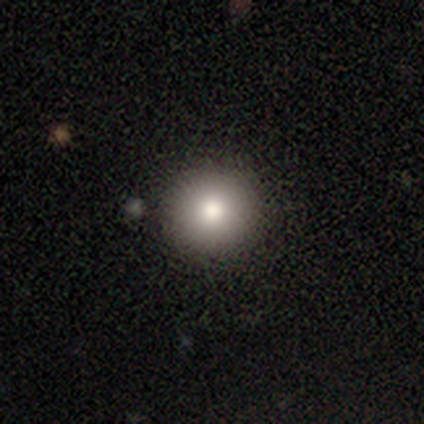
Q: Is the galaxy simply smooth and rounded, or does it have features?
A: smooth — 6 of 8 (75%).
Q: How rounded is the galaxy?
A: round — 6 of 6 (100%).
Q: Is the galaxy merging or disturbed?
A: none — 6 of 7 (86%).